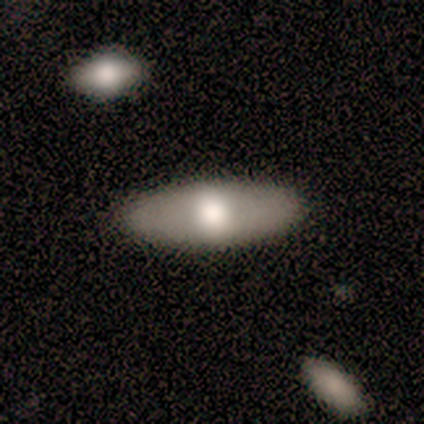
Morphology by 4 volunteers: Q: Smooth or featured?
A: featured or disk (75%); runner-up: smooth (25%)
Q: Edge-on disk?
A: no (100%)
Q: Bar?
A: no (100%)
Q: Spiral arms?
A: no (100%)
Q: Bulge size?
A: moderate (100%)
Q: Merging?
A: none (100%)